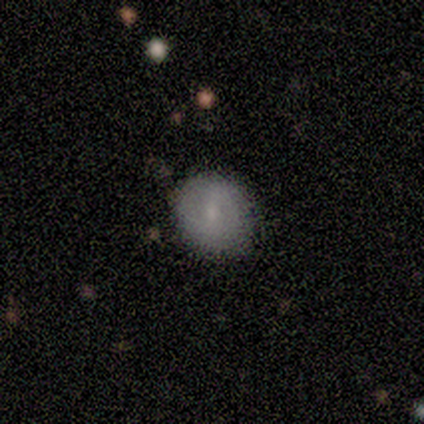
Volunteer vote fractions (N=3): Smooth or featured: smooth — 100%
How rounded: round — 100%
Merging: none — 100%